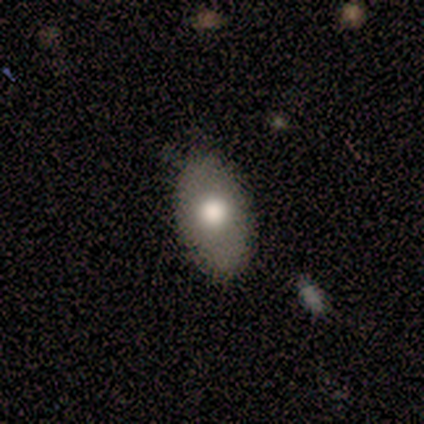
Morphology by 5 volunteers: Smooth or featured? smooth (100%)
How rounded? in between (100%)
Merging? none (100%)